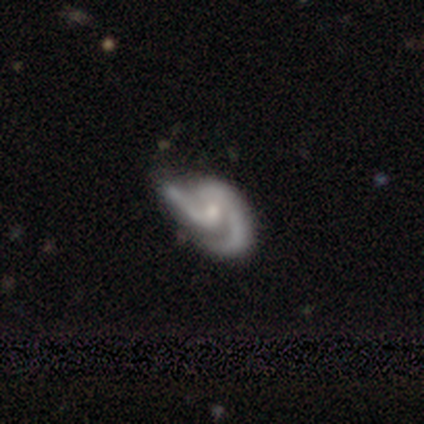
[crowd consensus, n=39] Smooth or featured?
  - featured or disk: 90% *
  - smooth: 8%
  - star or artifact: 3%
Edge-on disk?
  - no: 100% *
  - yes: 0%
Bar?
  - no: 49% *
  - weak: 46%
  - strong: 6%
Spiral arms?
  - yes: 97% *
  - no: 3%
Spiral winding?
  - medium: 56% *
  - loose: 32%
  - tight: 12%
Spiral arm count?
  - 2: 85% *
  - 1: 9%
  - 3: 6%
  - 4: 0%
  - more than 4: 0%
  - can't tell: 0%
Bulge size?
  - small: 51% *
  - moderate: 29%
  - none: 20%
  - dominant: 0%
  - large: 0%
Merging?
  - none: 42% *
  - major disturbance: 29%
  - minor disturbance: 26%
  - merger: 3%